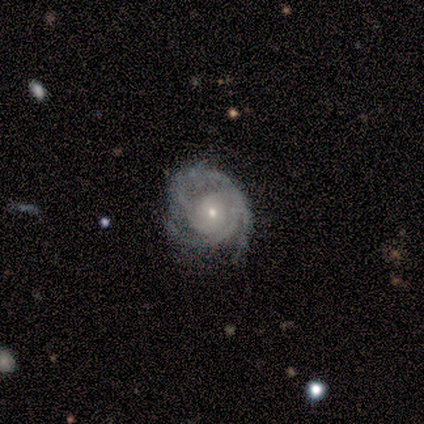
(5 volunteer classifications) smooth-or-featured: featured or disk: 100% | smooth: 0% | star or artifact: 0%
  disk-edge-on: no: 100% | yes: 0%
    bar: no: 80% | weak: 20% | strong: 0%
    has-spiral-arms: yes: 100% | no: 0%
      spiral-winding: tight: 60% | medium: 40% | loose: 0%
      spiral-arm-count: 3: 40% (tied) | can't tell: 40% (tied) | 2: 20% | 1: 0% | 4: 0% | more than 4: 0%
    bulge-size: small: 60% | moderate: 40% | dominant: 0% | large: 0% | none: 0%
  merging: none: 40% (tied) | minor disturbance: 40% (tied) | major disturbance: 20% | merger: 0%